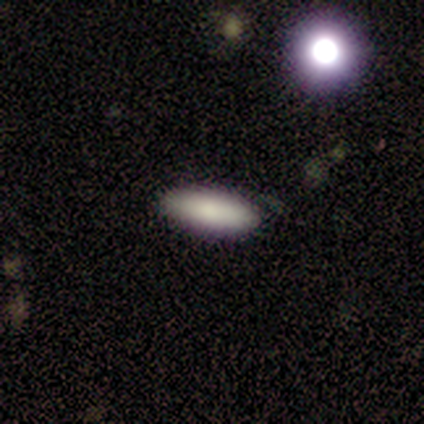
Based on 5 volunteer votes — This is clearly a smooth galaxy (100%). How rounded: likely cigar-shaped (60%). Merging: clearly none (100%).